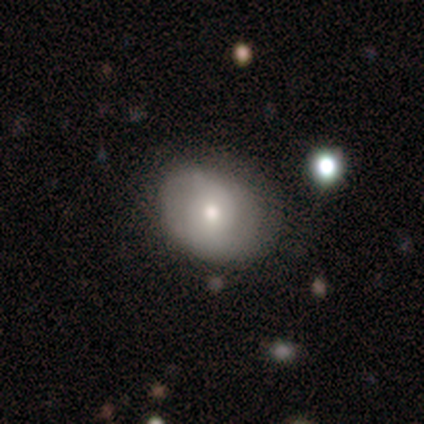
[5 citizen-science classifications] featured or disk 60%, smooth 40%, star or artifact 0%. Down the decision tree: edge-on disk — no (100%); bar — no (100%); spiral arms — no (100%); bulge size — moderate (67%); merging — none (60%).